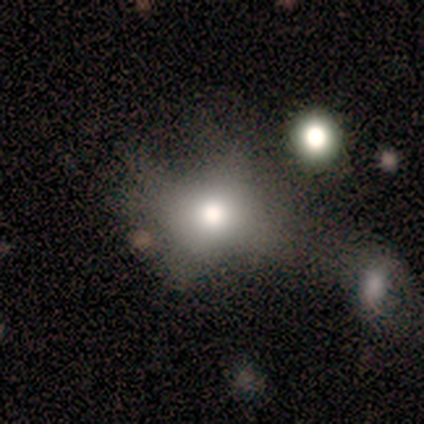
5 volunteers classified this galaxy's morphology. This is clearly a smooth galaxy (80%). How rounded: possibly round (50%, tied with in between). Merging: likely major disturbance (60%).